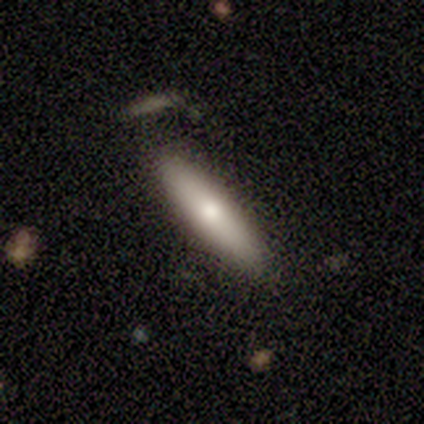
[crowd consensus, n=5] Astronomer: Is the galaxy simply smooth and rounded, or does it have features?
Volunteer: smooth — 80%.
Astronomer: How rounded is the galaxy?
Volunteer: cigar-shaped — 100%.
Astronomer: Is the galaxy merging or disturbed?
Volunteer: none — 80%.